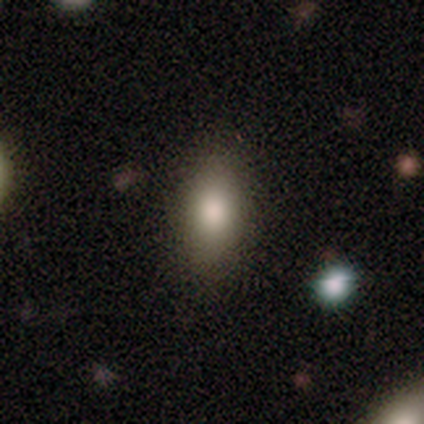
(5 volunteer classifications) This appears to be a smooth galaxy with no disk features (80%) that is in between round and cigar-shaped (50%). Merging: none (75%).